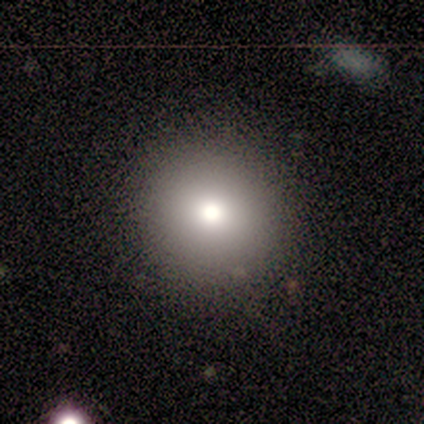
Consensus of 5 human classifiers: Volunteers were most divided on "smooth or featured": smooth: 80%, featured or disk: 20%, star or artifact: 0%. More confident: how rounded — round (100%); merging — none (80%).